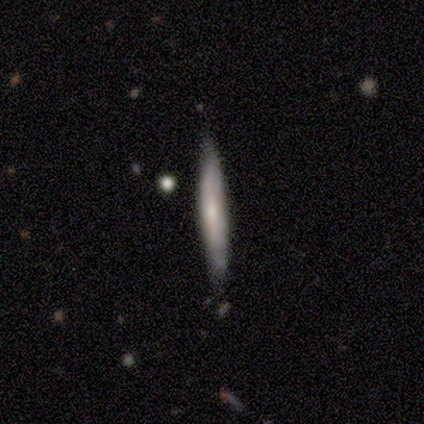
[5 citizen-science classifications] Smooth or featured? 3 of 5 (60%) said featured or disk. Edge-on disk? 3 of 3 (100%) said yes. Edge-on bulge? 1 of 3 (33%, tied with none and rounded) said boxy. Merging? 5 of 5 (100%) said none.